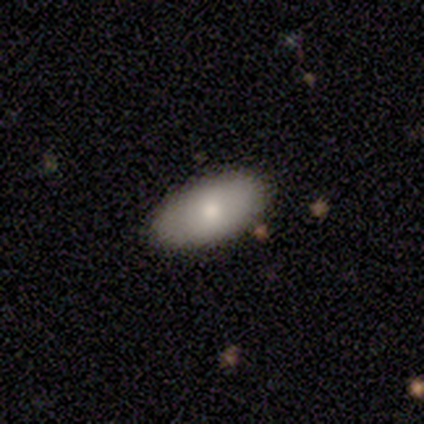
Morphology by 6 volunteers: A smooth galaxy with no disk features (50%) that is in between round and cigar-shaped (100%). Merging: none (80%).